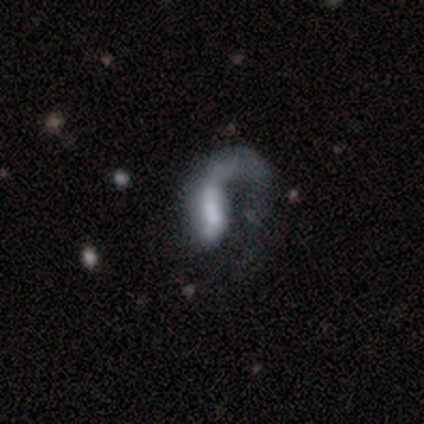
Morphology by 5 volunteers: This appears to be a featured or disk galaxy (60%) with no bar (67%), no spiral arms (67%) and a large central bulge (67%). Merging: major disturbance (40%).